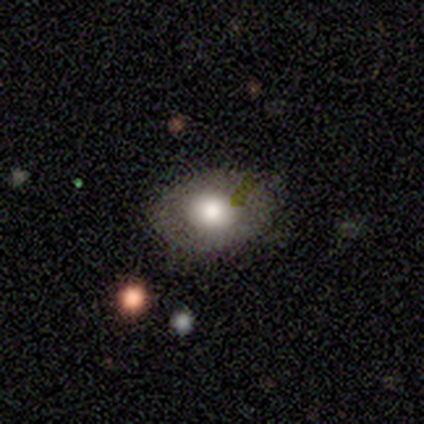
smooth_or_featured: smooth (p=0.40) [tied with: star or artifact p=0.40]
how_rounded: round (p=0.50) [tied with: in between p=0.50]
merging: none (p=1.00)